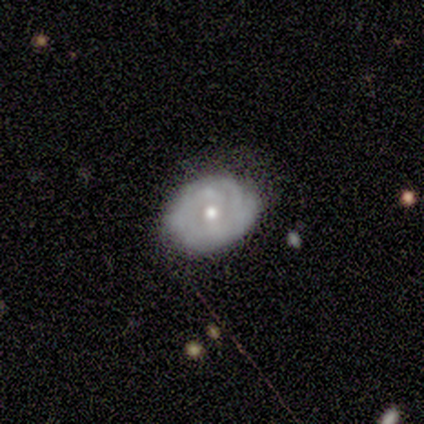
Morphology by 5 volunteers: This is likely a featured or disk galaxy (60%). It is clearly not viewed edge-on (100%). Bar: clearly no (100%). Spiral arm pattern: likely no (67%). Central bulge: clearly moderate (100%). Merging: likely none (60%).